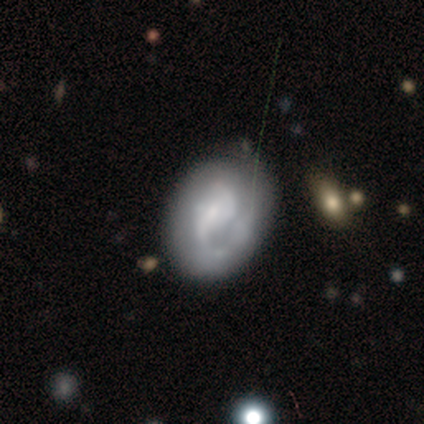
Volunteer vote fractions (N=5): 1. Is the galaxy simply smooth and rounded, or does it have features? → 80% featured or disk, 20% smooth, 0% star or artifact.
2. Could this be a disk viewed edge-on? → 100% no, 0% yes.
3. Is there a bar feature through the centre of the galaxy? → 50% strong (tied), 50% weak (tied), 0% no.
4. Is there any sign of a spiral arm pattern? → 75% yes, 25% no.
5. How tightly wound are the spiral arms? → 67% tight, 33% medium, 0% loose.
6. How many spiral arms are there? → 67% 2, 33% can't tell, 0% 1, 0% 3, 0% 4, 0% more than 4.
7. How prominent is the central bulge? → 75% small, 25% moderate, 0% dominant, 0% large, 0% none.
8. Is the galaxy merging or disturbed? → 60% minor disturbance, 40% none, 0% major disturbance, 0% merger.